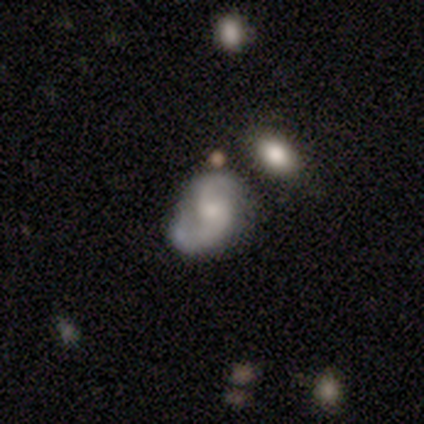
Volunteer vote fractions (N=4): Volunteers were most divided on "bar" (2-way tie): weak: 50%, no: 50%, strong: 0%. More confident: smooth or featured — featured or disk (100%); edge-on disk — no (100%); spiral arms — yes (100%); spiral arm count — 2 (100%); spiral winding — medium (75%); bulge size — moderate (75%); merging — minor disturbance (50%).